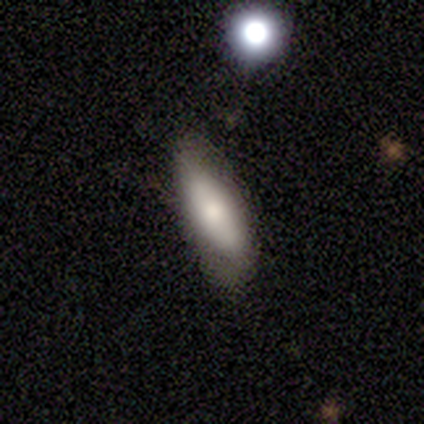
Smooth or featured? smooth (100%)
How rounded? in between (80%)
Merging? none (60%)